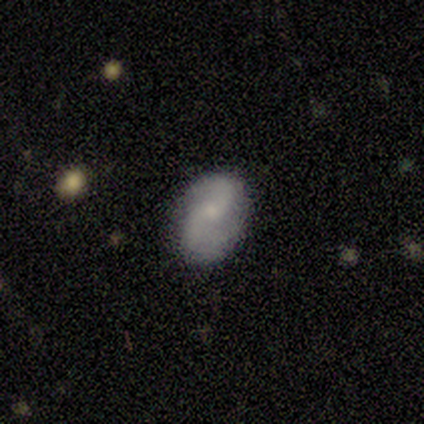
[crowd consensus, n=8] smooth 50% (tied), featured or disk 50% (tied), star or artifact 0%. Down the decision tree: how rounded — in between (100%); merging — none (62%).